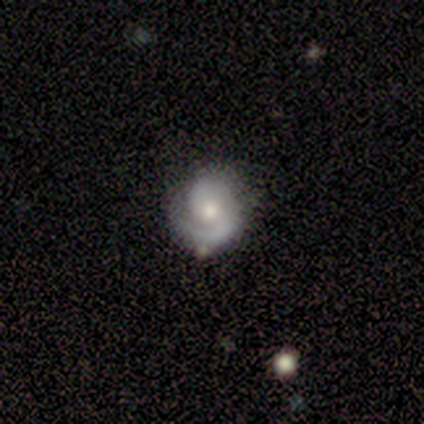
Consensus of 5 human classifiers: Smooth or featured? featured or disk (80%)
Edge-on disk? no (100%)
Bar? no (100%)
Spiral arms? yes (100%)
Spiral winding? medium (75%)
Spiral arm count? 1 (50%, tied with 2)
Bulge size? moderate (50%, tied with small)
Merging? none (80%)